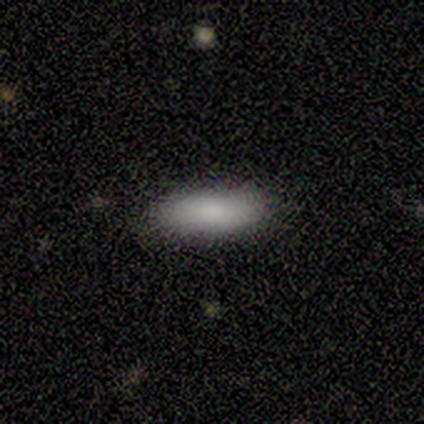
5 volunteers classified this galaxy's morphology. A smooth galaxy with no disk features (80%) that is in between round and cigar-shaped (75%).

Vote fractions:
- Smooth or featured? smooth: 80% / featured or disk: 20% / star or artifact: 0%
- How rounded? in between: 75% / cigar-shaped: 25% / round: 0%
- Merging? none: 60% / minor disturbance: 40% / major disturbance: 0% / merger: 0%